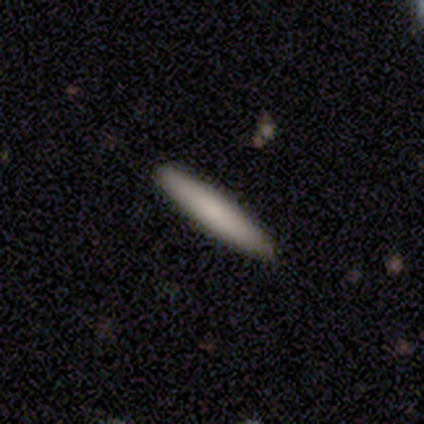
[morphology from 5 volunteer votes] Overall: smooth (80%). How rounded: cigar-shaped (100%). Merging: none (60%; minor disturbance 40%).